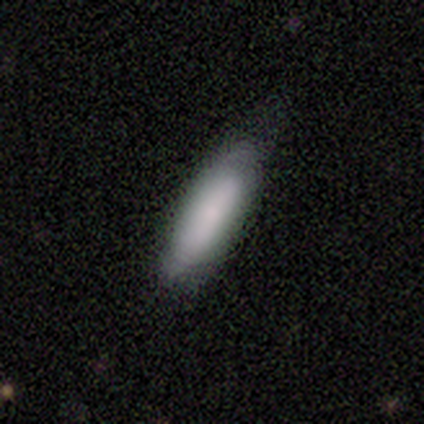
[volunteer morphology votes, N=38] Smooth or featured? smooth (89%)
How rounded? in between (47%)
Merging? none (30%)